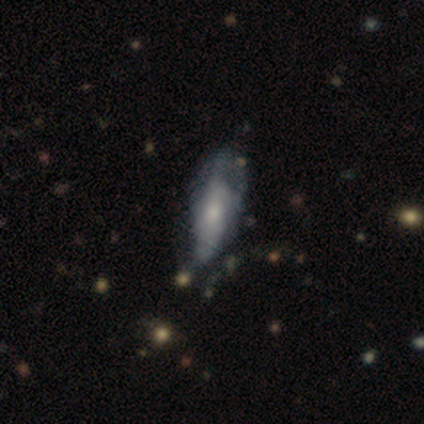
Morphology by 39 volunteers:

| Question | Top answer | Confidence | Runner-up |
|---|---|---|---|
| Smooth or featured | smooth | 51% | featured or disk (44%) |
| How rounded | in between | 65% | cigar-shaped (35%) |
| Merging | minor disturbance | 46% | none (35%) |